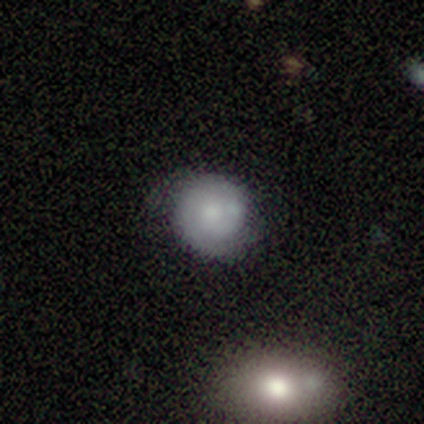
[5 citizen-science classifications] smooth_or_featured: smooth (p=0.40) [tied with: featured or disk p=0.40]
how_rounded: round (p=0.50) [tied with: in between p=0.50]
merging: none (p=0.75) [alt: minor disturbance p=0.25]